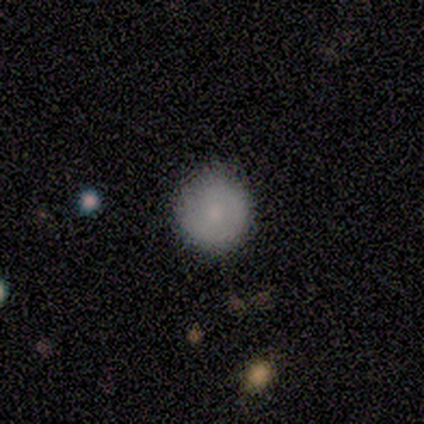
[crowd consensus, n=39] smooth-or-featured: smooth: 67% | featured or disk: 28% | star or artifact: 5%
  how-rounded: round: 100% | in between: 0% | cigar-shaped: 0%
  merging: none: 65% | merger: 3% | minor disturbance: 0% | major disturbance: 0%